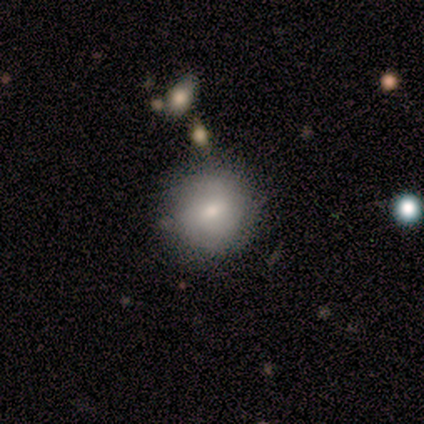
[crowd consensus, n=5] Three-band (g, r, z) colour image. It shows a smooth galaxy with no disk features (100%) that is round (100%). Merging: none (100%).